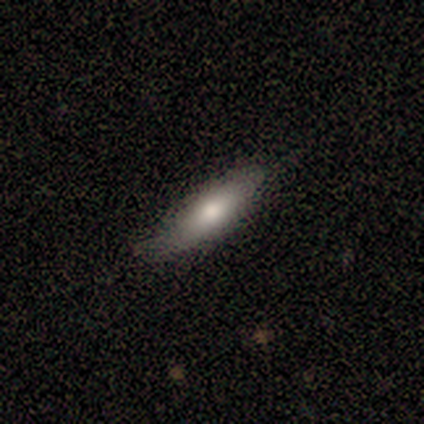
smooth-or-featured: smooth: 80% | featured or disk: 20% | star or artifact: 0%
  how-rounded: in between: 50% (tied) | cigar-shaped: 50% (tied) | round: 0%
  merging: none: 100% | minor disturbance: 0% | major disturbance: 0% | merger: 0%